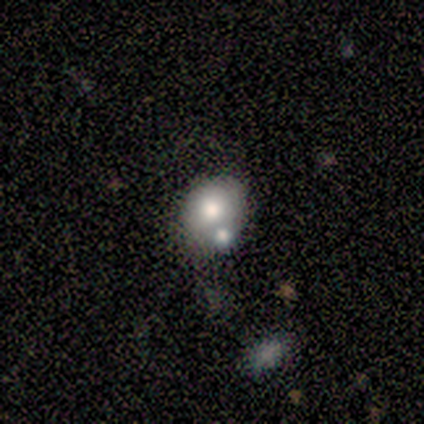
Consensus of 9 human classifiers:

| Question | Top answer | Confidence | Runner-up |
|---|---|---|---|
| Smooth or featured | smooth | 67% | star or artifact (22%) |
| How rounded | round | 67% | in between (33%) |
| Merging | none | 43% | tied: merger (43%) |